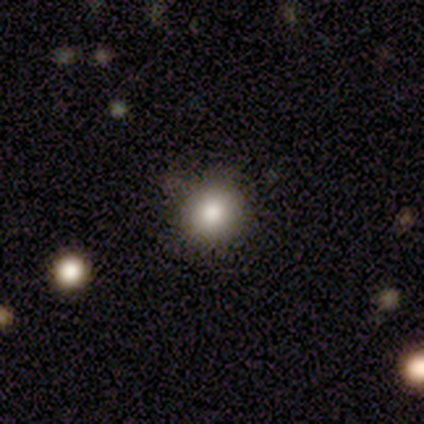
smooth_or_featured: smooth (p=0.60) [alt: star or artifact p=0.40]
how_rounded: round (p=1.00)
merging: none (p=1.00)